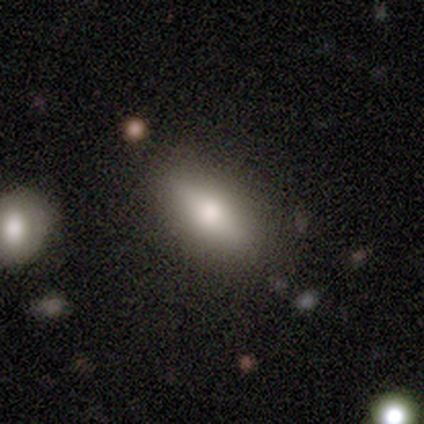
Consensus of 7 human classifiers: Smooth or featured? smooth (71%)
How rounded? in between (100%)
Merging? none (100%)